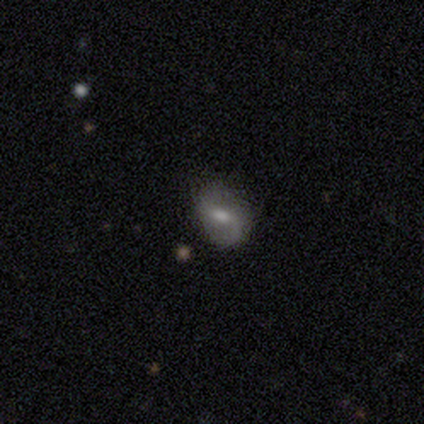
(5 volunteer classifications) A featured or disk galaxy (100%) with a weak bar (80%), no spiral arms (60%) and a moderate central bulge (80%). Merging: none (100%).